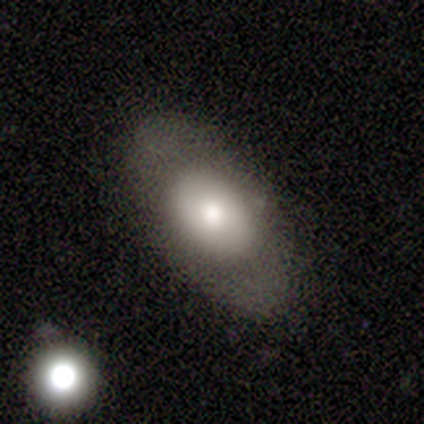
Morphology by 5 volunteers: smooth-or-featured: smooth: 80% | star or artifact: 20% | featured or disk: 0%
  how-rounded: in between: 100% | round: 0% | cigar-shaped: 0%
  merging: none: 75% | minor disturbance: 25% | major disturbance: 0% | merger: 0%